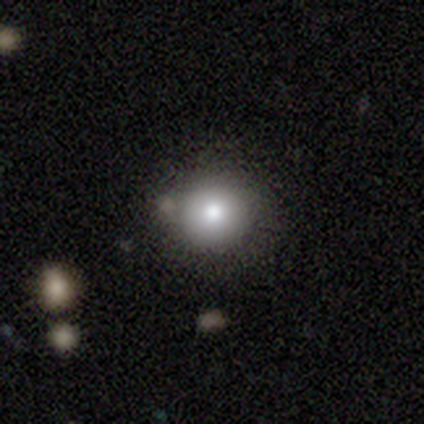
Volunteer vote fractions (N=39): Morphology: type=smooth (74%); roundness=round (100%); merging=none (97%).